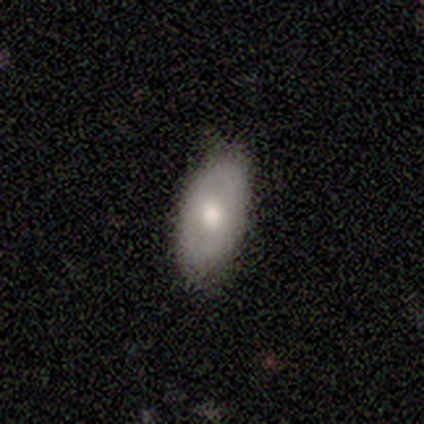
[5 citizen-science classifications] smooth-or-featured: smooth: 100% | featured or disk: 0% | star or artifact: 0%
  how-rounded: in between: 100% | round: 0% | cigar-shaped: 0%
  merging: none: 60% | minor disturbance: 40% | major disturbance: 0% | merger: 0%